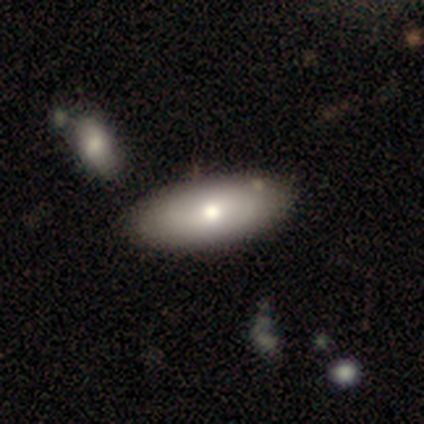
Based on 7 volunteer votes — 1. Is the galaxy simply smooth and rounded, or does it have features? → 100% smooth, 0% featured or disk, 0% star or artifact.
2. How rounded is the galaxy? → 71% in between, 29% cigar-shaped, 0% round.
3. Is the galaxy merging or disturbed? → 71% none, 14% minor disturbance, 14% merger, 0% major disturbance.